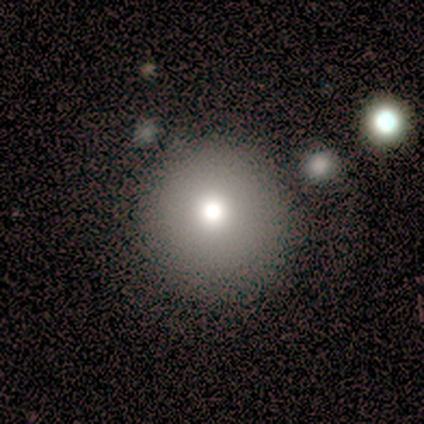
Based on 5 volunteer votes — A smooth galaxy with no disk features (60%) that is round (100%). Merging: none (60%).